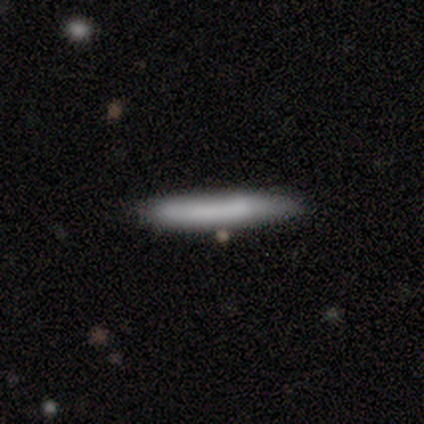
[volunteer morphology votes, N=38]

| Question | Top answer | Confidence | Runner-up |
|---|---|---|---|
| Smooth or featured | smooth | 87% | featured or disk (11%) |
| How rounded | cigar-shaped | 97% | in between (3%) |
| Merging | none | 73% | minor disturbance (22%) |